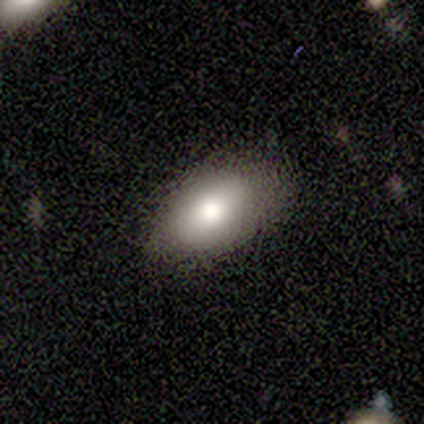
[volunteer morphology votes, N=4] This is likely a smooth galaxy (75%). How rounded: clearly in between (100%). Merging: likely minor disturbance (67%).